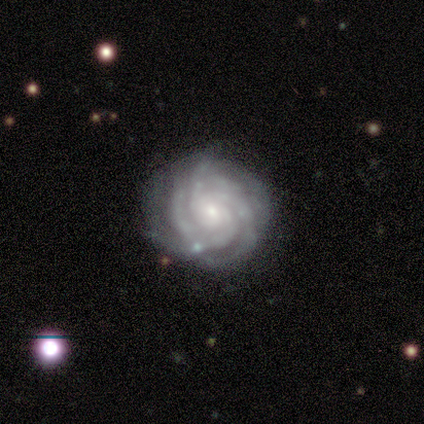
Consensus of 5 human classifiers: Smooth or featured?
  - featured or disk: 100% *
  - smooth: 0%
  - star or artifact: 0%
Edge-on disk?
  - no: 100% *
  - yes: 0%
Bar?
  - strong: 40% * (tied)
  - weak: 40% * (tied)
  - no: 20%
Spiral arms?
  - yes: 100% *
  - no: 0%
Spiral winding?
  - tight: 100% *
  - medium: 0%
  - loose: 0%
Spiral arm count?
  - 4: 40% *
  - 3: 20%
  - more than 4: 20%
  - can't tell: 20%
  - 1: 0%
  - 2: 0%
Bulge size?
  - large: 40% * (tied)
  - moderate: 40% * (tied)
  - small: 20%
  - dominant: 0%
  - none: 0%
Merging?
  - none: 100% *
  - minor disturbance: 0%
  - major disturbance: 0%
  - merger: 0%